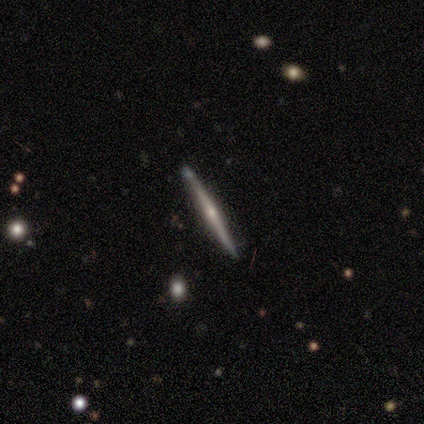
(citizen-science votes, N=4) smooth-or-featured: featured or disk: 100% | smooth: 0% | star or artifact: 0%
  disk-edge-on: yes: 100% | no: 0%
    edge-on-bulge: rounded: 75% | none: 25% | boxy: 0%
  merging: none: 75% | merger: 25% | minor disturbance: 0% | major disturbance: 0%